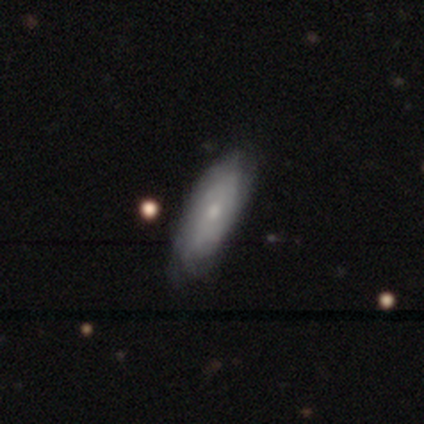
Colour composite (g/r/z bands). It shows a smooth galaxy with no disk features (60%) that is cigar-shaped (67%). Merging: none (80%).